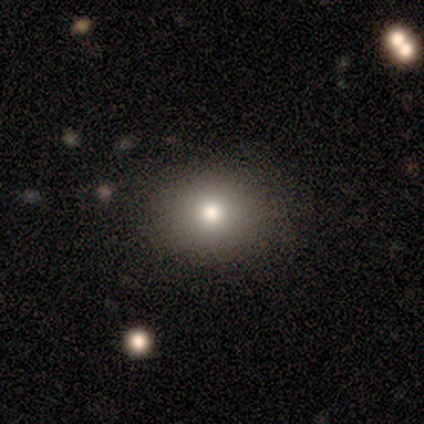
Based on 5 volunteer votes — Overall: smooth (80%). How rounded: round (75%). Merging: none (100%).